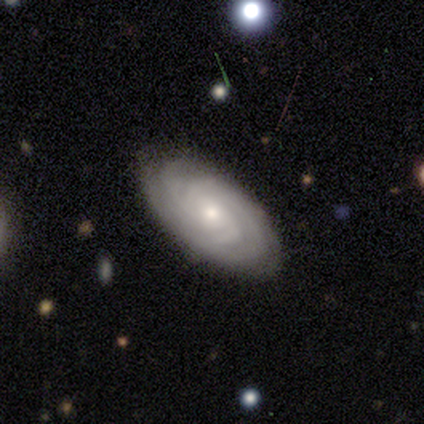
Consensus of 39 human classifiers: This is clearly a featured or disk galaxy (90%). It is clearly not viewed edge-on (86%). Bar: likely no (63%). Spiral arm pattern: clearly yes (100%). Spiral arm count: marginally 3 (30%). Spiral winding: likely tight (73%). Central bulge: possibly small (53%). Merging: clearly none (89%).